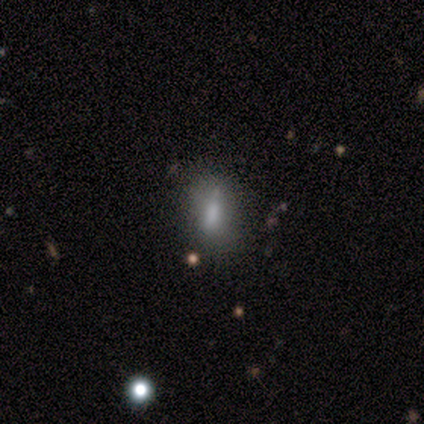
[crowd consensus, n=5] smooth_or_featured: smooth (p=0.80) [alt: star or artifact p=0.20]
how_rounded: cigar-shaped (p=0.75) [alt: in between p=0.25]
merging: none (p=0.50) [alt: minor disturbance p=0.25]